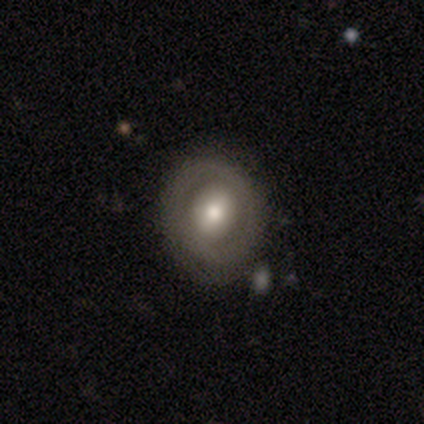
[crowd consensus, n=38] Q: Smooth or featured?
A: featured or disk (50%); runner-up: smooth (39%)
Q: Edge-on disk?
A: no (95%); runner-up: yes (5%)
Q: Bar?
A: no (61%); runner-up: weak (33%)
Q: Spiral arms?
A: no (89%); runner-up: yes (11%)
Q: Bulge size?
A: moderate (56%); runner-up: large (33%)
Q: Merging?
A: none (71%); runner-up: minor disturbance (18%)